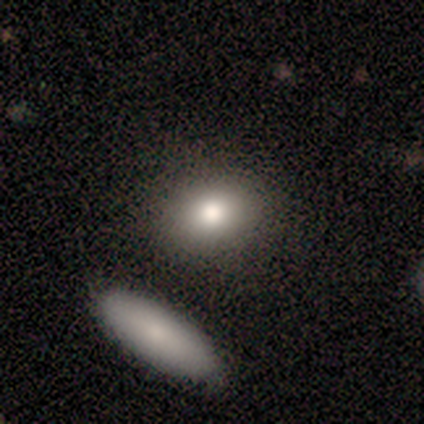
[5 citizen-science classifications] Smooth or featured? smooth (100%)
How rounded? in between (60%)
Merging? none (100%)